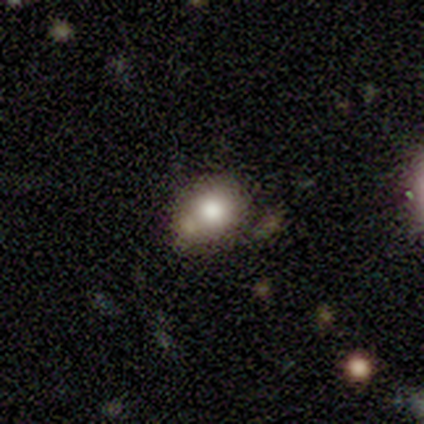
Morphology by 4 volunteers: This appears to be a smooth galaxy with no disk features (75%) that is round (67%). Merging: none (100%).